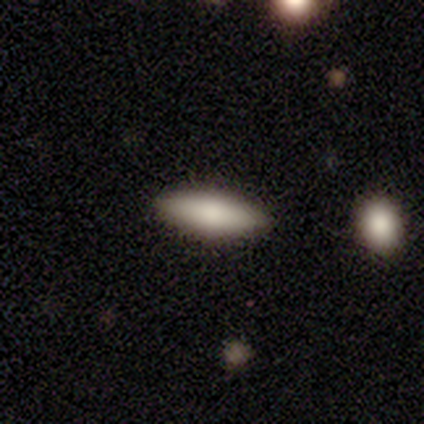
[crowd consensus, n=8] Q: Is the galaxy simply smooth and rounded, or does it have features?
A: smooth — 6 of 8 (75%).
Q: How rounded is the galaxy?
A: in between — 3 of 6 (50%, tied with cigar-shaped).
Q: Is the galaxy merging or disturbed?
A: none — 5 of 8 (62%).